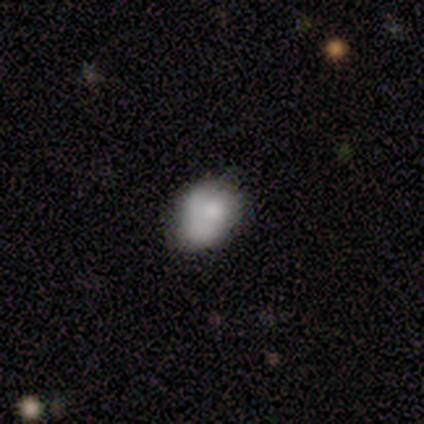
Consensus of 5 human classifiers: Q: Smooth or featured?
A: smooth (60%); runner-up: featured or disk (40%)
Q: How rounded?
A: in between (100%)
Q: Merging?
A: none (80%); runner-up: minor disturbance (20%)